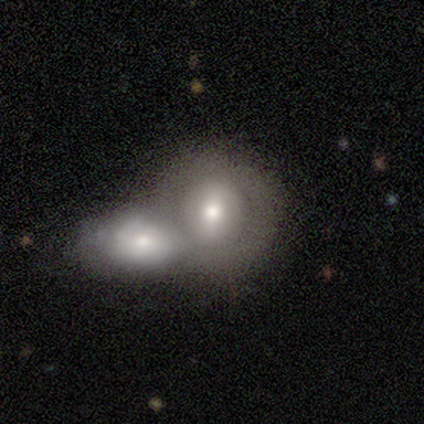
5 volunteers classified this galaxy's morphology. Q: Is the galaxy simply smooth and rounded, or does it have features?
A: smooth — 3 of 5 (60%).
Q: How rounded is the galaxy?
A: round — 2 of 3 (67%).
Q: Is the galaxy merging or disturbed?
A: merger — 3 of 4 (75%).